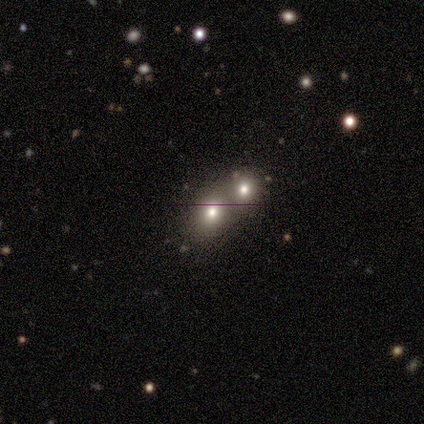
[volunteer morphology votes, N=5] type=smooth (80%); roundness=round (75%); merging=merger (50%).